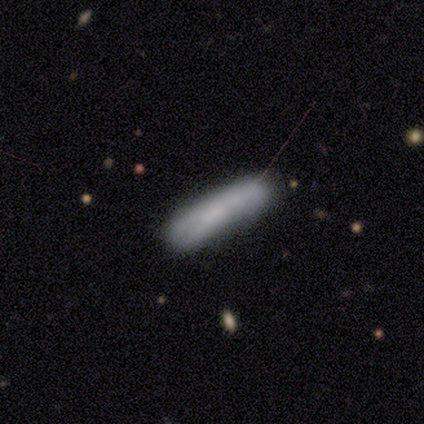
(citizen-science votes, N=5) Smooth or featured? smooth (100%)
How rounded? cigar-shaped (100%)
Merging? none (100%)